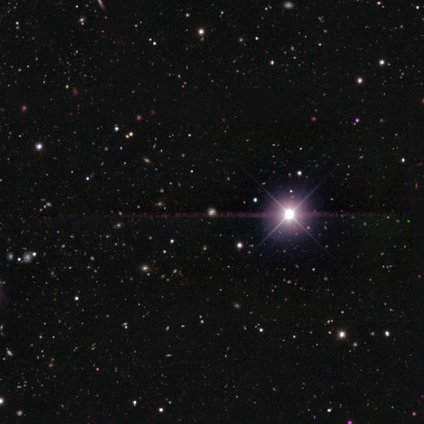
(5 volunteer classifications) Morphology: type=star or artifact (80%).